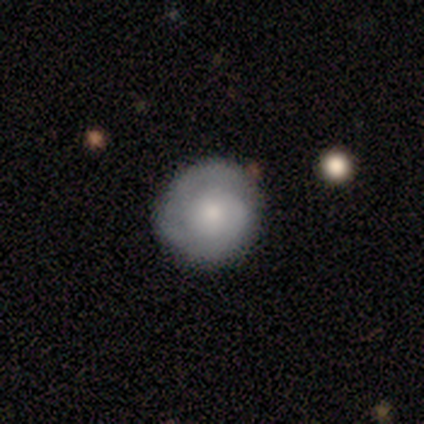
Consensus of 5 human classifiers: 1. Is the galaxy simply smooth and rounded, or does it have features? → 100% featured or disk, 0% smooth, 0% star or artifact.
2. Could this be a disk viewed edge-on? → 80% no, 20% yes.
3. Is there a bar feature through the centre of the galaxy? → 100% no, 0% strong, 0% weak.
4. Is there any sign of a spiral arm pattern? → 100% yes, 0% no.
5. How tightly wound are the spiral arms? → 100% tight, 0% medium, 0% loose.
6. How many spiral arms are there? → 25% 1 (tied), 25% 2 (tied), 25% 3 (tied), 25% can't tell (tied), 0% 4, 0% more than 4.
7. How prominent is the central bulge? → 75% small, 25% moderate, 0% dominant, 0% large, 0% none.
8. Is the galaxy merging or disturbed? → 60% none, 20% minor disturbance, 20% major disturbance, 0% merger.